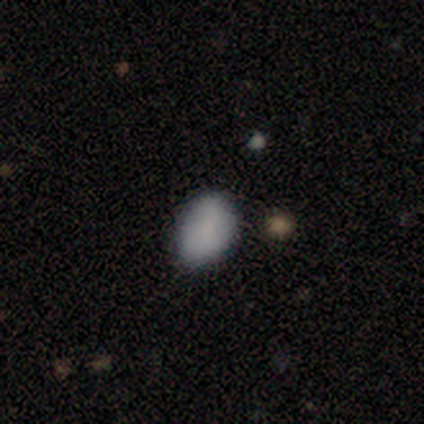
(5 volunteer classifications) Volunteers were most divided on "merging": none: 60%, minor disturbance: 20%, major disturbance: 20%, merger: 0%. More confident: how rounded — in between (100%); smooth or featured — smooth (80%).